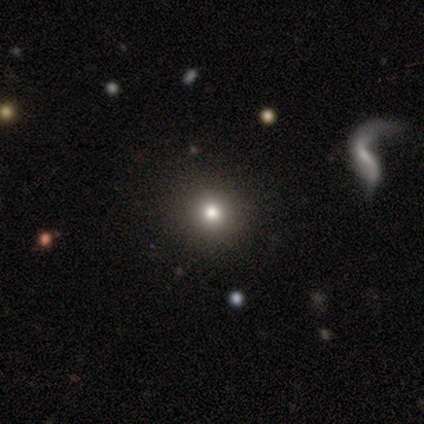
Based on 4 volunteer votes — smooth_or_featured: smooth (p=0.50) [alt: featured or disk p=0.25]
how_rounded: round (p=1.00)
merging: none (p=1.00)